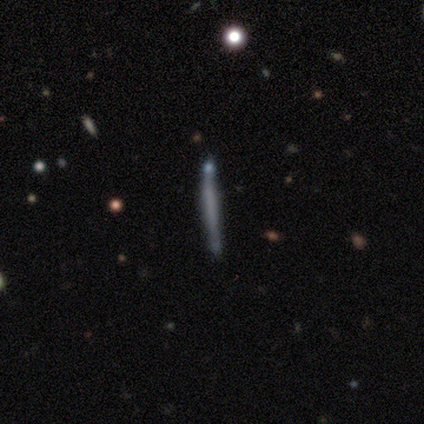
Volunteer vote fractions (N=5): Smooth or featured? 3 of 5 (60%) said smooth. How rounded? 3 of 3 (100%) said cigar-shaped. Merging? 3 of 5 (60%) said none.